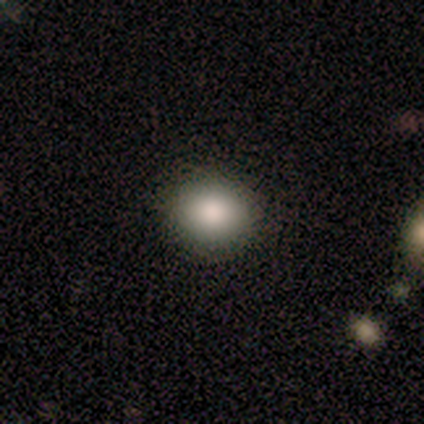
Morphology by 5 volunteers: A smooth galaxy with no disk features (60%) that is round (67%).

Vote fractions:
- Smooth or featured? smooth: 60% / featured or disk: 40% / star or artifact: 0%
- How rounded? round: 67% / in between: 33% / cigar-shaped: 0%
- Merging? none: 100% / minor disturbance: 0% / major disturbance: 0% / merger: 0%